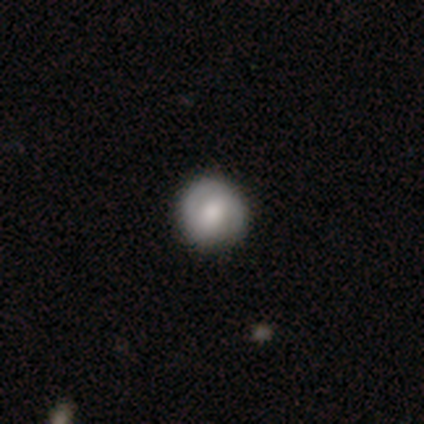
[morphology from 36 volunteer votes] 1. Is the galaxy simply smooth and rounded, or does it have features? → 56% smooth, 39% featured or disk, 6% star or artifact.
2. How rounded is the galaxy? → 100% round, 0% in between, 0% cigar-shaped.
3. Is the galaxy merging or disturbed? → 94% none, 3% minor disturbance, 3% major disturbance, 0% merger.